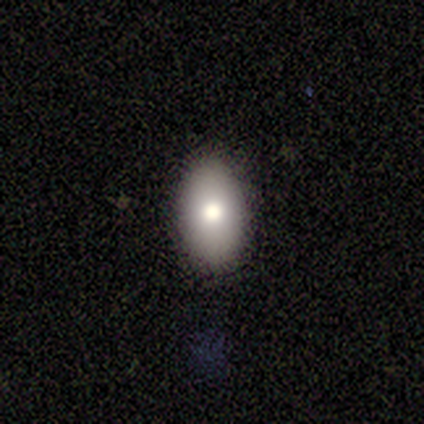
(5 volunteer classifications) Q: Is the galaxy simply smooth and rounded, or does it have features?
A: smooth — 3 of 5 (60%).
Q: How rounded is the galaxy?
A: in between — 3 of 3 (100%).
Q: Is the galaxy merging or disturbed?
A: none — 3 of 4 (75%).